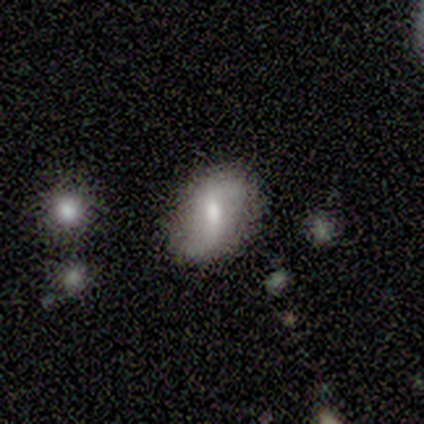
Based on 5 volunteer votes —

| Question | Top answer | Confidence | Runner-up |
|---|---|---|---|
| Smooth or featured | featured or disk | 60% | smooth (40%) |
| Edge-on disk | no | 100% | — |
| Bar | weak | 67% | no (33%) |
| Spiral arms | yes | 100% | — |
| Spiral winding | loose | 67% | tight (33%) |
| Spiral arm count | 2 | 100% | — |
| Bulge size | moderate | 67% | large (33%) |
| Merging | none | 80% | minor disturbance (20%) |